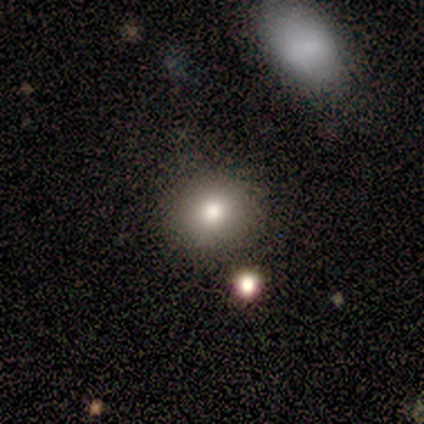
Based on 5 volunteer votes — A smooth galaxy with no disk features (100%) that is round (80%). Merging: none (100%).